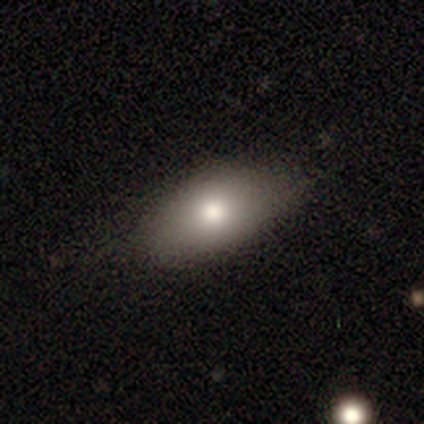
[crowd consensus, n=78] A smooth galaxy with no disk features (83%) that is in between round and cigar-shaped (97%).

Vote fractions:
- Smooth or featured? smooth: 83% / featured or disk: 9% / star or artifact: 8%
- How rounded? in between: 97% / round: 2% / cigar-shaped: 2%
- Merging? none: 42% / minor disturbance: 15% / major disturbance: 3% / merger: 0%